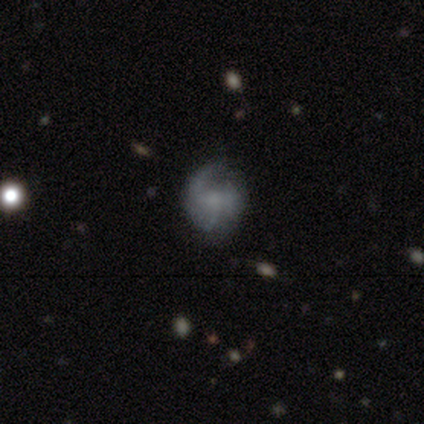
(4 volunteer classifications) featured or disk 75%, smooth 25%, star or artifact 0%. Down the decision tree: edge-on disk — no (100%); bar — no (67%); spiral arms — no (67%); bulge size — none (67%); merging — major disturbance (75%).